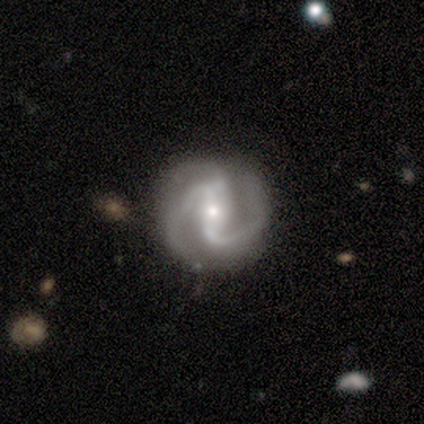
This appears to be a featured or disk galaxy (100%) with a strong bar (50%, tied with weak), 2 (75%) medium (50%) spiral arms (100%) and a moderate central bulge (75%). Merging: none (100%).